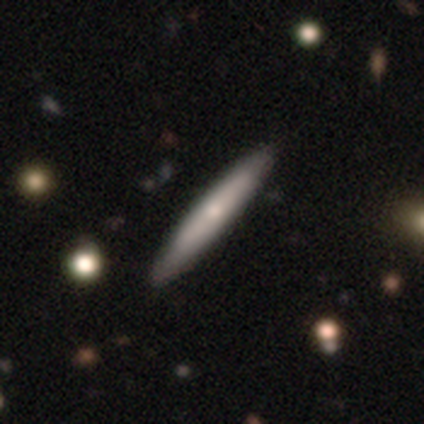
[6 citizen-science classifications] Smooth or featured? 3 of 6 (50%, tied with featured or disk) said smooth. How rounded? 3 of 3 (100%) said cigar-shaped. Merging? 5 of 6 (83%) said none.